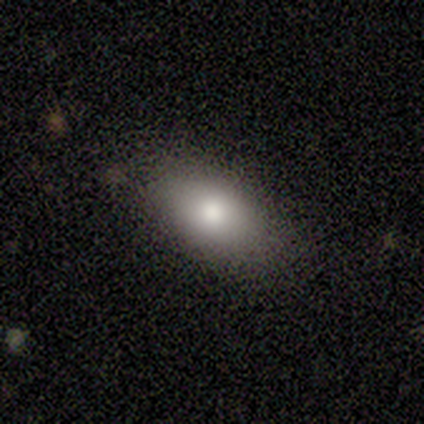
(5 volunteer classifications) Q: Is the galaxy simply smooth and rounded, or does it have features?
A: smooth — 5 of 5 (100%).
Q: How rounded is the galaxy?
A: in between — 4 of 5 (80%).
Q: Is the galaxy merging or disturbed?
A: none — 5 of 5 (100%).